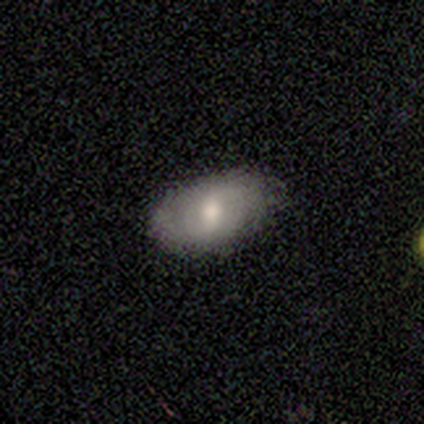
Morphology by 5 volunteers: A smooth galaxy with no disk features (60%) that is in between round and cigar-shaped (100%). Merging: none (80%).